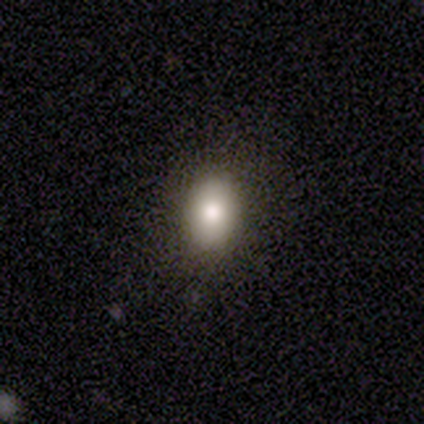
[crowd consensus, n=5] Q: Smooth or featured?
A: smooth (80%); runner-up: featured or disk (20%)
Q: How rounded?
A: in between (75%); runner-up: round (25%)
Q: Merging?
A: none (80%); runner-up: minor disturbance (20%)